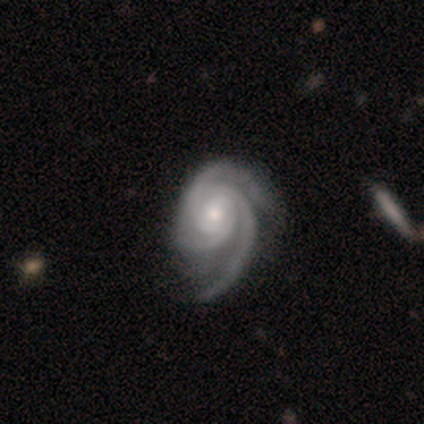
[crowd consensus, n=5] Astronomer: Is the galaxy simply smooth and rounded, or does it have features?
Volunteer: featured or disk — 100%.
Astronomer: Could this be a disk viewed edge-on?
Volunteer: no — 100%.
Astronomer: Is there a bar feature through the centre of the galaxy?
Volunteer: weak — 40%, tied with no at 40%.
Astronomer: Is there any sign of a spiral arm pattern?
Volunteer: yes — 80%.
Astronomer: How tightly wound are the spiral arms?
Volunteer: medium — 75%.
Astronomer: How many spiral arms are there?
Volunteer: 3 — 100%.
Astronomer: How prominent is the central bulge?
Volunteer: moderate — 80%.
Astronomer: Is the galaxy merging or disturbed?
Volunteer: minor disturbance — 40%, tied with major disturbance at 40%.